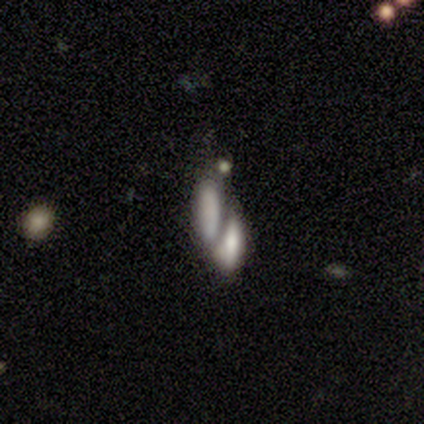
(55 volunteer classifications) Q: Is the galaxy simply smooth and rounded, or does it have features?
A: smooth — 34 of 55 (62%).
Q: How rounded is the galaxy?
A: in between — 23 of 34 (68%).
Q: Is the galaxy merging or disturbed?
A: merger — 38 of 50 (76%).